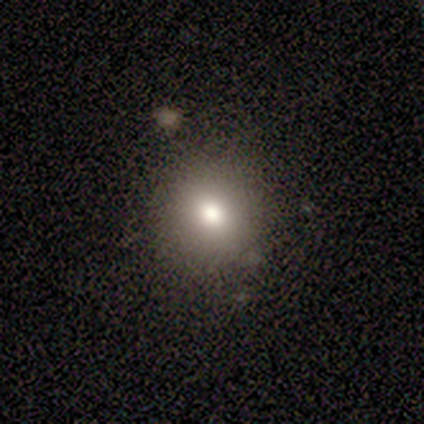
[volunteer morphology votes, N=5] A smooth galaxy with no disk features (80%) that is round (75%). Merging: none (80%).